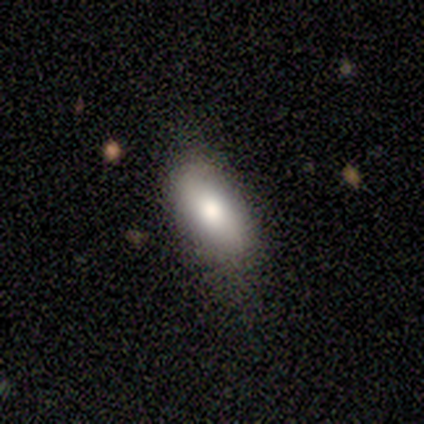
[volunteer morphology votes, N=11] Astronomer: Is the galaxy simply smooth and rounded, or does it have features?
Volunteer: smooth — 73%.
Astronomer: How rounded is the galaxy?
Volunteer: in between — 100%.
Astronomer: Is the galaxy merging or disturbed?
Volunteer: minor disturbance — 45% (runner-up: none, 36%).